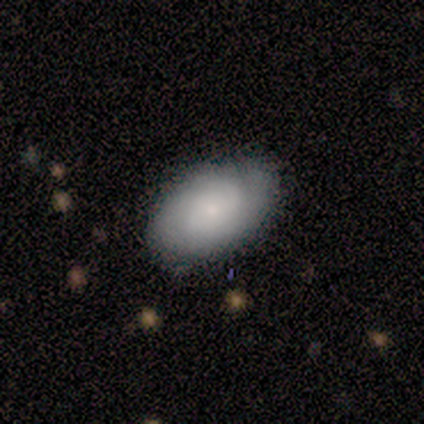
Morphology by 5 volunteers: A featured or disk galaxy (60%) with no bar (100%), no spiral arms (100%) and a small central bulge (100%).

Vote fractions:
- Smooth or featured? featured or disk: 60% / smooth: 40% / star or artifact: 0%
- Edge-on disk? no: 100% / yes: 0%
- Bar? no: 100% / strong: 0% / weak: 0%
- Spiral arms? no: 100% / yes: 0%
- Bulge size? small: 100% / dominant: 0% / large: 0% / moderate: 0% / none: 0%
- Merging? none: 80% / minor disturbance: 20% / major disturbance: 0% / merger: 0%